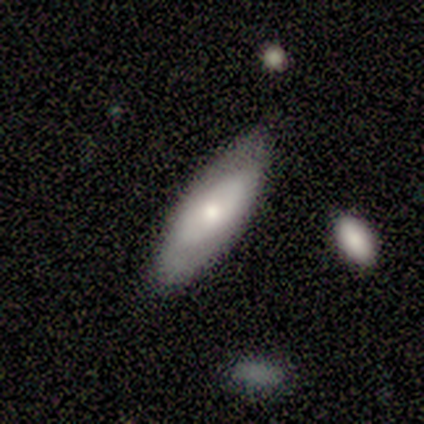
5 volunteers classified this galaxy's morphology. Q: Smooth or featured?
A: featured or disk (60%); runner-up: smooth (40%)
Q: Edge-on disk?
A: no (100%)
Q: Bar?
A: no (100%)
Q: Spiral arms?
A: no (67%); runner-up: yes (33%)
Q: Bulge size?
A: moderate (67%); runner-up: small (33%)
Q: Merging?
A: none (60%); runner-up: minor disturbance (40%)